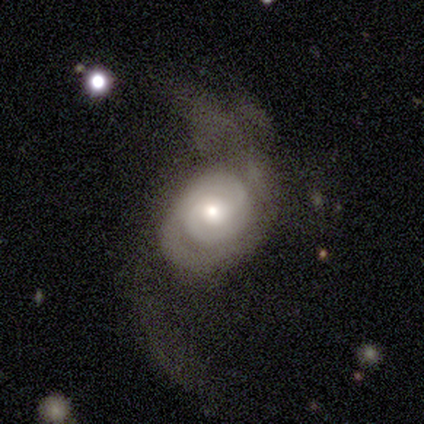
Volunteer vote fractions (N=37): This is clearly a featured or disk galaxy (84%). It is clearly not viewed edge-on (100%). Bar: likely no (68%). Spiral arm pattern: clearly yes (97%). Spiral arm count: likely 2 (60%). Spiral winding: possibly tight (50%). Central bulge: likely moderate (61%). Merging: marginally major disturbance (44%).